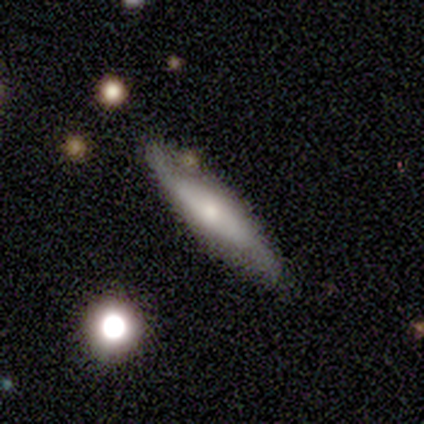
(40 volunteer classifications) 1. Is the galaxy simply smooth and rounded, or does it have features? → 50% featured or disk, 45% smooth, 5% star or artifact.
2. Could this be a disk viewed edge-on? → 60% yes, 40% no.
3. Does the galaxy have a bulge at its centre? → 83% rounded, 17% boxy, 0% none.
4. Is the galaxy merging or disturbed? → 63% none, 26% minor disturbance, 8% merger, 3% major disturbance.